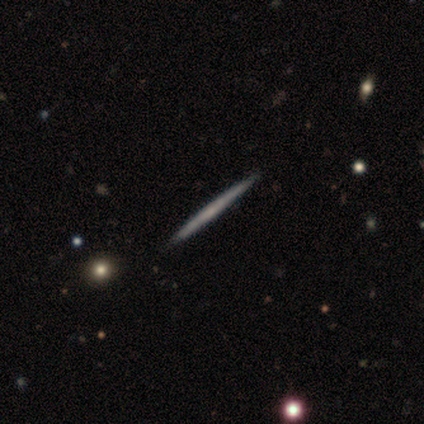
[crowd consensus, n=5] Volunteers were most divided on "smooth or featured": featured or disk: 60%, smooth: 40%, star or artifact: 0%. More confident: edge-on disk — yes (100%); edge-on bulge — none (100%); merging — none (100%).